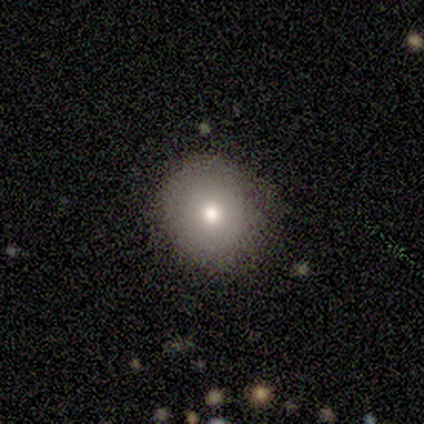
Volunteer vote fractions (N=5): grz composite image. It shows a smooth galaxy with no disk features (80%) that is round (100%). Merging: none (75%).